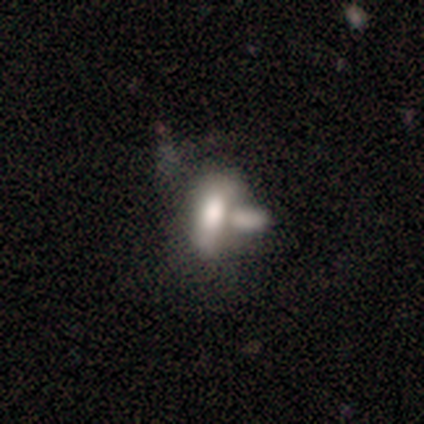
A smooth galaxy with no disk features (100%) that is in between round and cigar-shaped (80%). Merging: merger (80%).